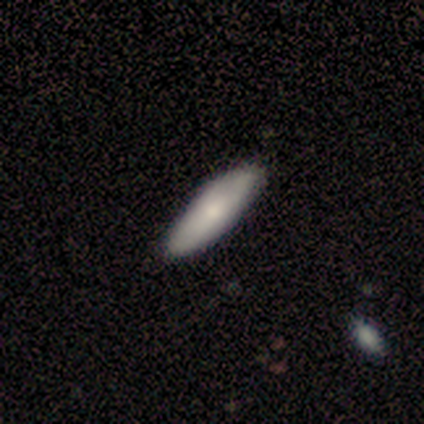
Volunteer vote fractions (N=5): Overall: smooth (100%). How rounded: in between (80%). Merging: none (80%).